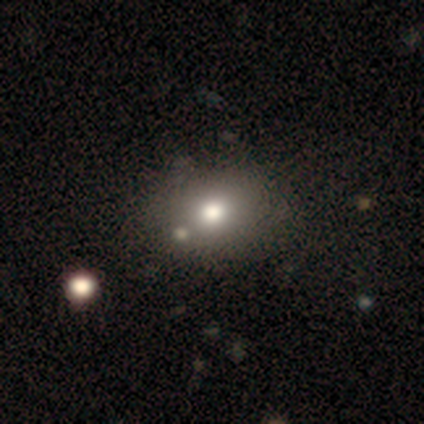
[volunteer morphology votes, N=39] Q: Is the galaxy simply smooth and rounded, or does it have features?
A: smooth — 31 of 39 (79%).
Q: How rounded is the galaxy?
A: round — 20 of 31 (65%).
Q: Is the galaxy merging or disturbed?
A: none — 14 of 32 (44%).